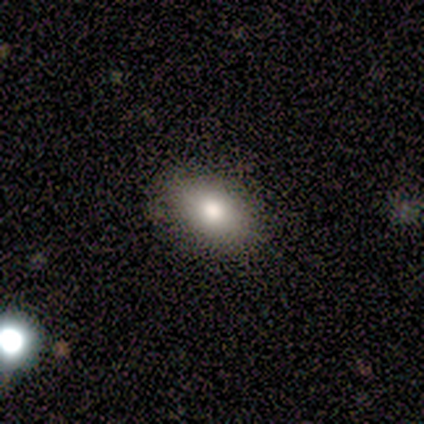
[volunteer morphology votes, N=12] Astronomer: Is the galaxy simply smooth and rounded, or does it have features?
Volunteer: smooth — 83%.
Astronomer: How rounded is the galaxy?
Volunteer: in between — 90%.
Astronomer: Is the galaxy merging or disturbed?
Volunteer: none — 100%.